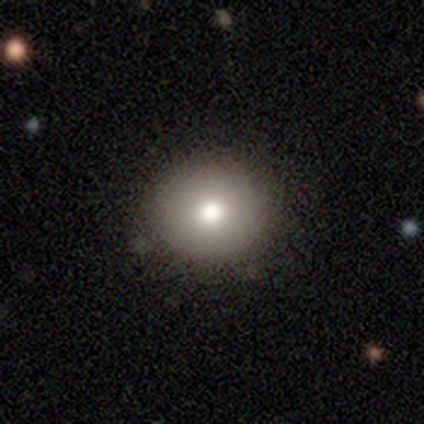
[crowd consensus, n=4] Q: Smooth or featured?
A: smooth (100%)
Q: How rounded?
A: round (50%); tied with: in between (50%)
Q: Merging?
A: none (100%)